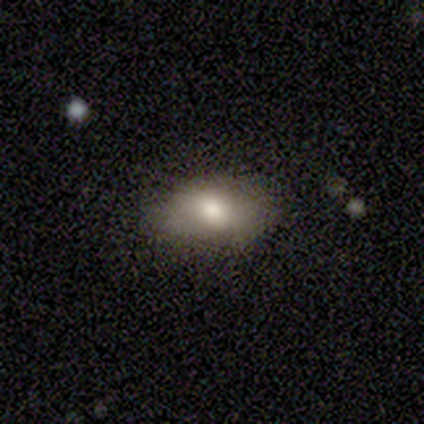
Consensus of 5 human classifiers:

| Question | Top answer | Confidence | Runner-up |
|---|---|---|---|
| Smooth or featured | smooth | 60% | featured or disk (40%) |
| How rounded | in between | 100% | — |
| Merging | minor disturbance | 80% | none (20%) |